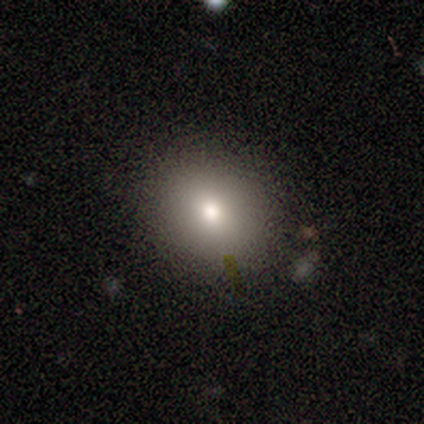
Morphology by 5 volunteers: Smooth or featured?
  - smooth: 80% *
  - featured or disk: 20%
  - star or artifact: 0%
How rounded?
  - round: 50% * (tied)
  - in between: 50% * (tied)
  - cigar-shaped: 0%
Merging?
  - none: 80% *
  - merger: 20%
  - minor disturbance: 0%
  - major disturbance: 0%